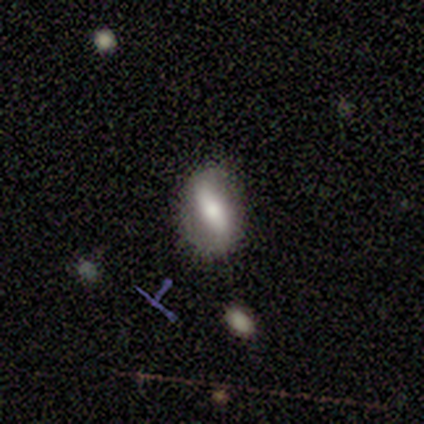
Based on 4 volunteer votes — Q: Smooth or featured?
A: featured or disk (75%); runner-up: smooth (25%)
Q: Edge-on disk?
A: no (100%)
Q: Bar?
A: strong (67%); runner-up: weak (33%)
Q: Spiral arms?
A: no (100%)
Q: Bulge size?
A: large (33%); tied with: small (33%); none (33%)
Q: Merging?
A: none (75%); runner-up: minor disturbance (25%)